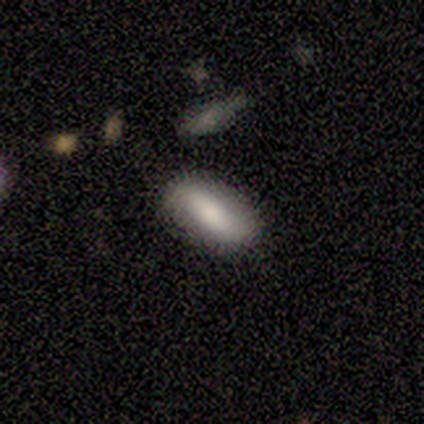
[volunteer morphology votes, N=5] Q: Smooth or featured?
A: smooth (80%); runner-up: featured or disk (20%)
Q: How rounded?
A: in between (100%)
Q: Merging?
A: none (100%)